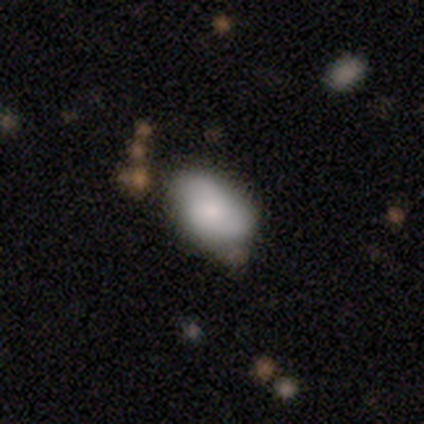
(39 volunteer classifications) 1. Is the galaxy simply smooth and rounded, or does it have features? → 49% smooth, 44% featured or disk, 8% star or artifact.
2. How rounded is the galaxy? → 89% in between, 11% round, 0% cigar-shaped.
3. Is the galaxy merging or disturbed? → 31% none, 28% minor disturbance, 8% major disturbance, 6% merger.